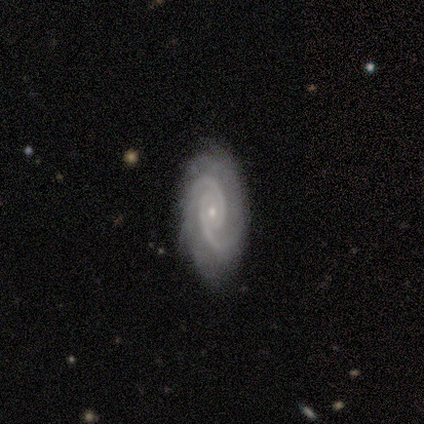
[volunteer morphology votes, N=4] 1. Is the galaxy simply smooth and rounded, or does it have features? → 100% featured or disk, 0% smooth, 0% star or artifact.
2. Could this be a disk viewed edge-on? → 100% no, 0% yes.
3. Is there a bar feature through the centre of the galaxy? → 75% no, 25% weak, 0% strong.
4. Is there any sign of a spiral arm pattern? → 100% yes, 0% no.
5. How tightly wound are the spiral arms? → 50% tight (tied), 50% medium (tied), 0% loose.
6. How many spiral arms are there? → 75% 2, 25% can't tell, 0% 1, 0% 3, 0% 4, 0% more than 4.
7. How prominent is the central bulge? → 100% small, 0% dominant, 0% large, 0% moderate, 0% none.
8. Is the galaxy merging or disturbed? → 75% none, 25% minor disturbance, 0% major disturbance, 0% merger.